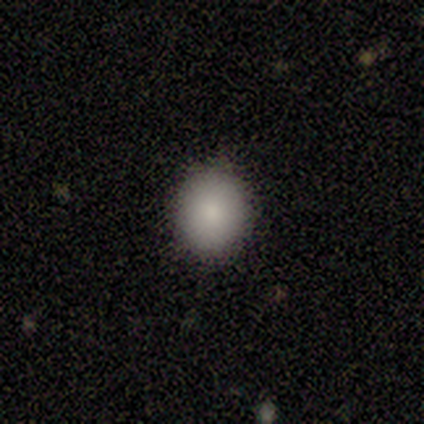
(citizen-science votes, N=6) Volunteers were most divided on "how rounded": round: 83%, in between: 17%, cigar-shaped: 0%. More confident: smooth or featured — smooth (100%); merging — none (83%).